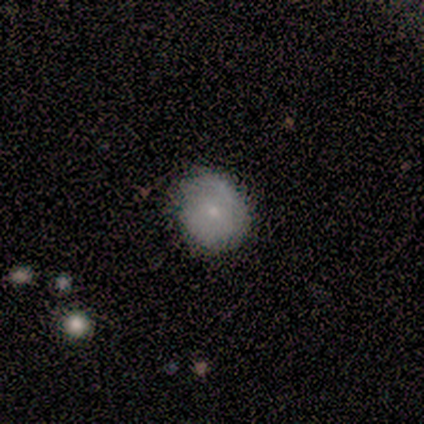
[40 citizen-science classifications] Morphology: type=smooth (60%); roundness=round (79%); merging=none (68%).